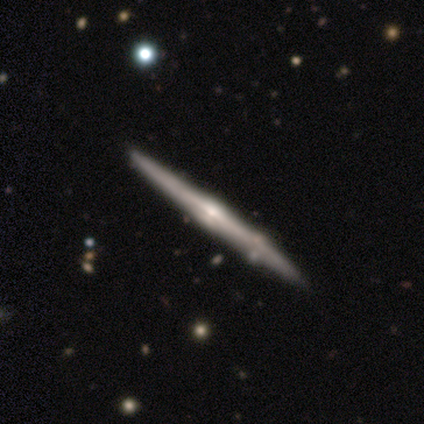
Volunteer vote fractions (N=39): smooth_or_featured: featured or disk (p=0.85) [alt: smooth p=0.13]
disk_edge_on: yes (p=1.00)
edge_on_bulge: rounded (p=0.64) [alt: none p=0.24]
merging: none (p=0.53) [alt: minor disturbance p=0.11]